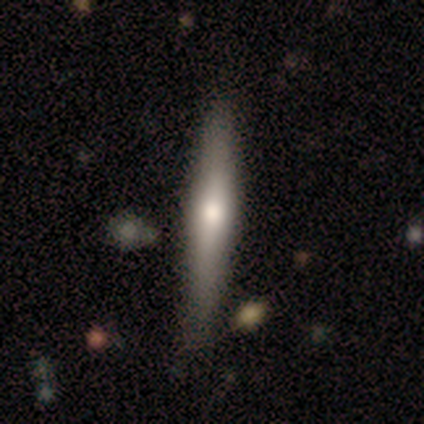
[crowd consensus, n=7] This is marginally a smooth galaxy (43%, tied with featured or disk). How rounded: clearly cigar-shaped (100%). Merging: clearly none (83%).